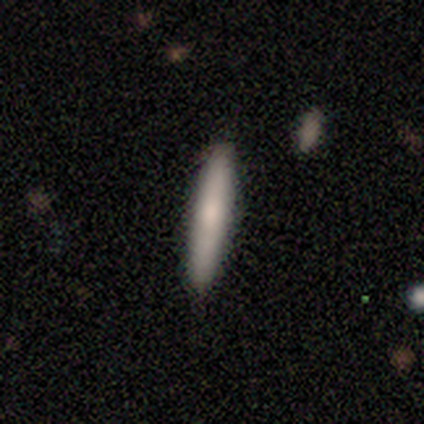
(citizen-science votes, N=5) A smooth galaxy with no disk features (80%) that is cigar-shaped (75%).

Vote fractions:
- Smooth or featured? smooth: 80% / featured or disk: 20% / star or artifact: 0%
- How rounded? cigar-shaped: 75% / in between: 25% / round: 0%
- Merging? none: 100% / minor disturbance: 0% / major disturbance: 0% / merger: 0%